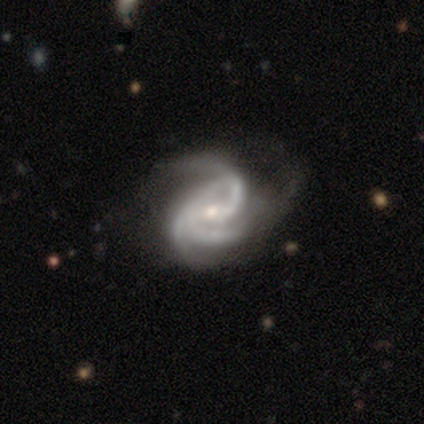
A featured or disk galaxy (100%) with a weak bar (54%), 3 (71%) medium (45%) spiral arms (97%) and a small central bulge (51%).

Vote fractions:
- Smooth or featured? featured or disk: 100% / smooth: 0% / star or artifact: 0%
- Edge-on disk? no: 100% / yes: 0%
- Bar? weak: 54% / no: 38% / strong: 8%
- Spiral arms? yes: 97% / no: 3%
- Spiral winding? medium: 45% / tight: 39% / loose: 16%
- Spiral arm count? 3: 71% / 2: 21% / can't tell: 8% / 1: 0% / 4: 0% / more than 4: 0%
- Bulge size? small: 51% / moderate: 49% / dominant: 0% / large: 0% / none: 0%
- Merging? none: 36% / major disturbance: 33% / minor disturbance: 10% / merger: 0%